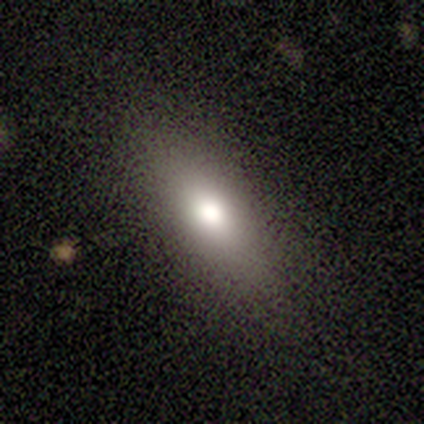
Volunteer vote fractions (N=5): smooth 80%, featured or disk 20%, star or artifact 0%. Down the decision tree: how rounded — in between (75%); merging — none (100%).